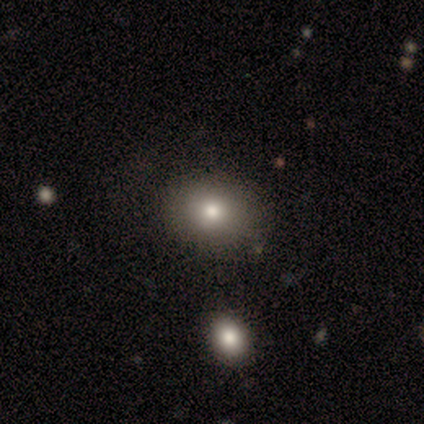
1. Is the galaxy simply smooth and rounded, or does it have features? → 40% smooth (tied), 40% star or artifact (tied), 20% featured or disk.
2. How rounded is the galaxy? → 50% round (tied), 50% in between (tied), 0% cigar-shaped.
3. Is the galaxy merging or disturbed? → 100% none, 0% minor disturbance, 0% major disturbance, 0% merger.